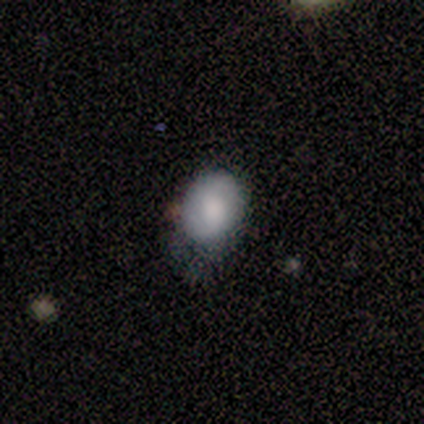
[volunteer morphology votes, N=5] This appears to be a smooth galaxy with no disk features (80%) that is round (50%, tied with in between). Merging: none (60%).